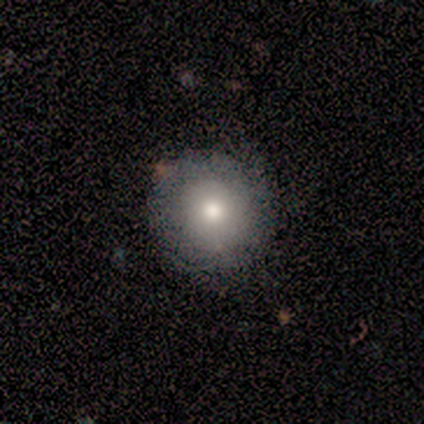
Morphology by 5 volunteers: Q: Smooth or featured?
A: smooth (80%); runner-up: featured or disk (20%)
Q: How rounded?
A: round (100%)
Q: Merging?
A: none (40%); tied with: major disturbance (40%)